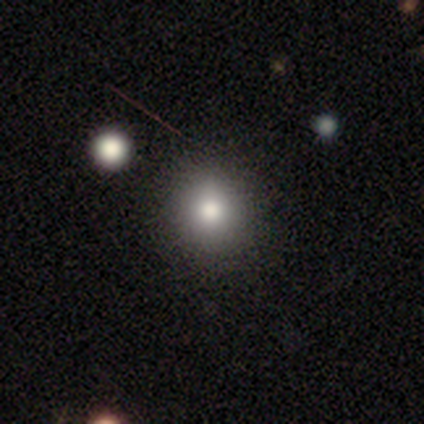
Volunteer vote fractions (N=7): smooth_or_featured: smooth (p=0.86) [alt: star or artifact p=0.14]
how_rounded: round (p=1.00)
merging: none (p=1.00)